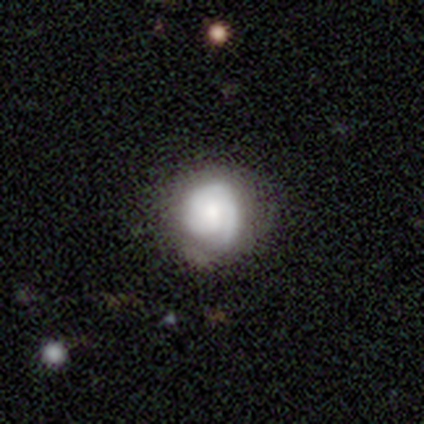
featured or disk 55%, smooth 42%, star or artifact 2%. Down the decision tree: edge-on disk — no (100%); bar — no (55%); spiral arms — yes (91%); spiral arm count — 1 (45%); spiral winding — tight (75%); bulge size — moderate (41%); merging — none (74%).